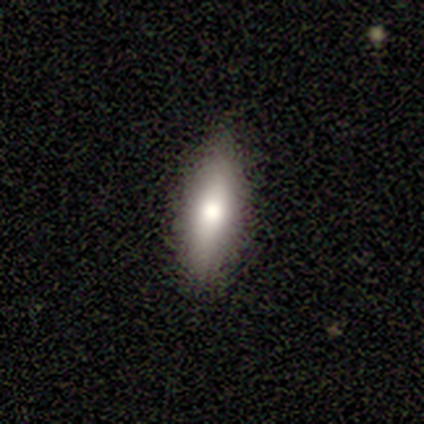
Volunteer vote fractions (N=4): smooth-or-featured: smooth: 75% | featured or disk: 25% | star or artifact: 0%
  how-rounded: cigar-shaped: 100% | round: 0% | in between: 0%
  merging: none: 75% | minor disturbance: 25% | major disturbance: 0% | merger: 0%